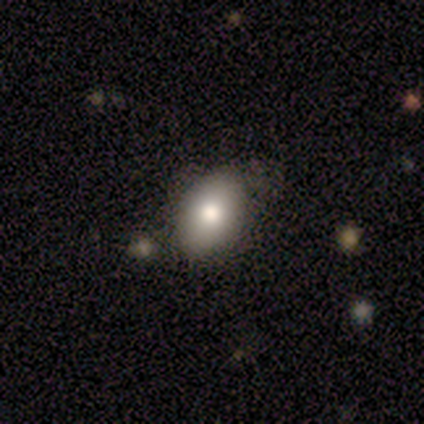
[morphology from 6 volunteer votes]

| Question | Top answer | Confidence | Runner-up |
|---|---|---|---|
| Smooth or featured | smooth | 67% | featured or disk (17%) |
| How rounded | in between | 100% | — |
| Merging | none | 80% | merger (20%) |